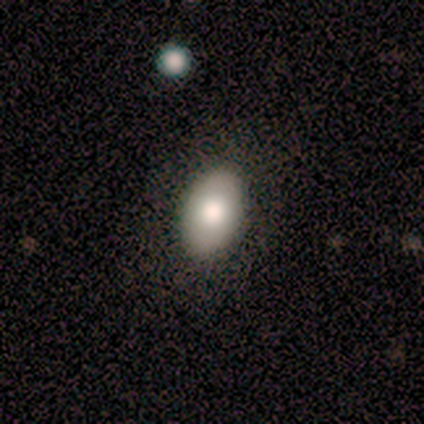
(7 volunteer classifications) smooth-or-featured: smooth: 86% | featured or disk: 14% | star or artifact: 0%
  how-rounded: in between: 100% | round: 0% | cigar-shaped: 0%
  merging: none: 86% | major disturbance: 14% | minor disturbance: 0% | merger: 0%